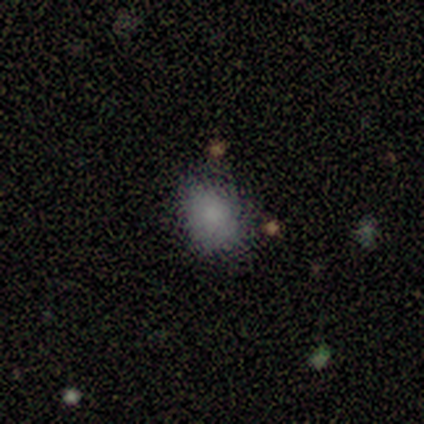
Volunteers were most divided on "how rounded": in between: 60%, round: 40%, cigar-shaped: 0%. More confident: smooth or featured — smooth (100%); merging — none (100%).